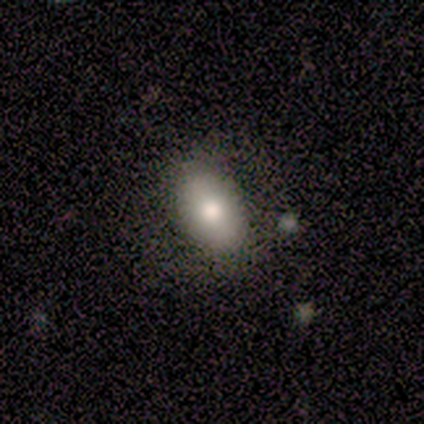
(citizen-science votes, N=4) Q: Smooth or featured?
A: smooth (75%); runner-up: featured or disk (25%)
Q: How rounded?
A: in between (100%)
Q: Merging?
A: none (100%)